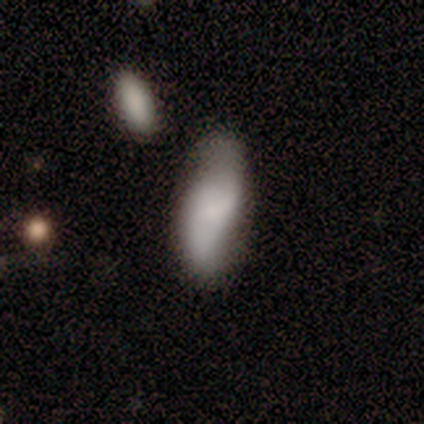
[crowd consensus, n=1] smooth-or-featured: smooth: 100% | featured or disk: 0% | star or artifact: 0%
  how-rounded: in between: 100% | round: 0% | cigar-shaped: 0%
  merging: none: 100% | minor disturbance: 0% | major disturbance: 0% | merger: 0%